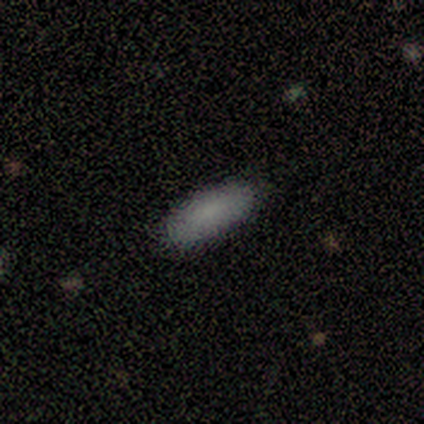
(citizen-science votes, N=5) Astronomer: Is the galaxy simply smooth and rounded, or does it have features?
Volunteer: smooth — 100%.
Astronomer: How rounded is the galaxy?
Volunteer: in between — 80%.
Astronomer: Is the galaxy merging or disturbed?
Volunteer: none — 100%.